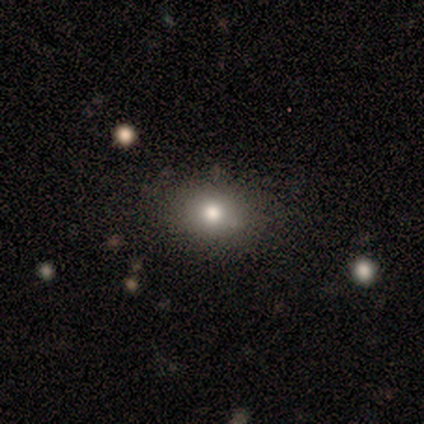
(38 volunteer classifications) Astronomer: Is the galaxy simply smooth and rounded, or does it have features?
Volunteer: smooth — 74%.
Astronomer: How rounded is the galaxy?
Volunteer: round — 57% (runner-up: in between, 43%).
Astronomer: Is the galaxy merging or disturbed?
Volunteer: none — 88%.